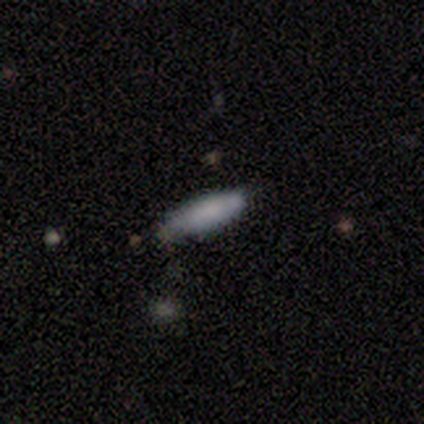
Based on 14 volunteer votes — Smooth or featured? smooth (100%)
How rounded? in between (64%)
Merging? none (86%)